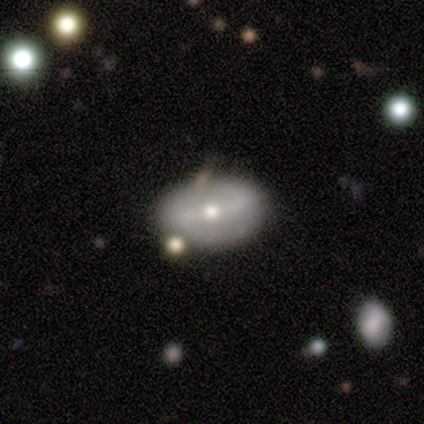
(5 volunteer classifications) This is likely a featured or disk galaxy (60%). It is clearly not viewed edge-on (100%). Bar: likely no (67%). Spiral arm pattern: likely yes (67%). Spiral arm count: clearly 2 (100%). Spiral winding: possibly medium (50%, tied with loose). Central bulge: likely moderate (67%). Merging: likely none (75%).